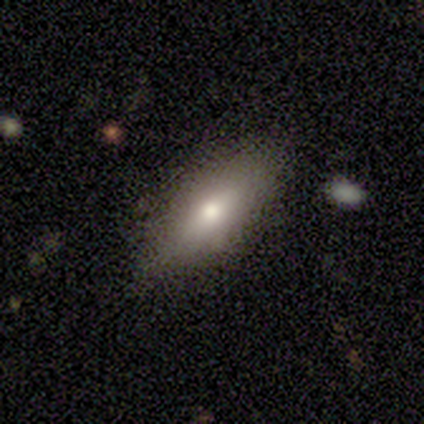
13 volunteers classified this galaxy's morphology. smooth-or-featured: smooth: 69% | featured or disk: 23% | star or artifact: 8%
  how-rounded: in between: 56% | cigar-shaped: 44% | round: 0%
  merging: none: 75% | minor disturbance: 25% | major disturbance: 0% | merger: 0%